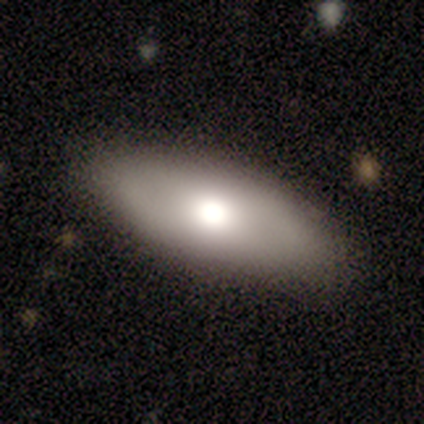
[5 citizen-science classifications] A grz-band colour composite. It shows a smooth galaxy with no disk features (100%) that is in between round and cigar-shaped (80%). Merging: none (100%).